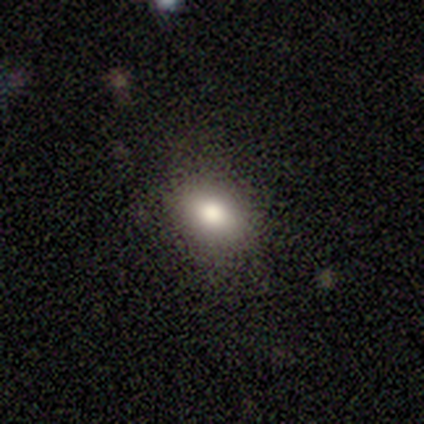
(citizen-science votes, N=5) Volunteers were most divided on "how rounded": in between: 75%, round: 25%, cigar-shaped: 0%. More confident: merging — none (100%); smooth or featured — smooth (80%).